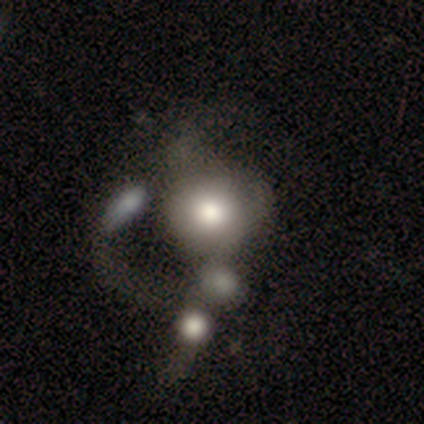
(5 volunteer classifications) Overall: smooth (40%, tied with star or artifact). How rounded: round (100%). Merging: none (67%; merger 33%).